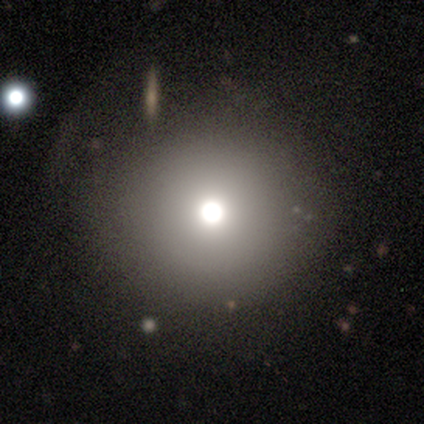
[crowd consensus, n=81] Volunteers were most divided on "merging": none: 51%, minor disturbance: 4%, merger: 4%, major disturbance: 3%. More confident: how rounded — round (95%); smooth or featured — smooth (73%).